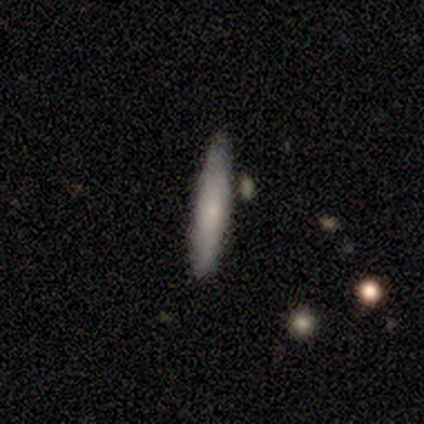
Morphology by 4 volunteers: Overall: smooth (100%). How rounded: cigar-shaped (100%). Merging: none (75%).